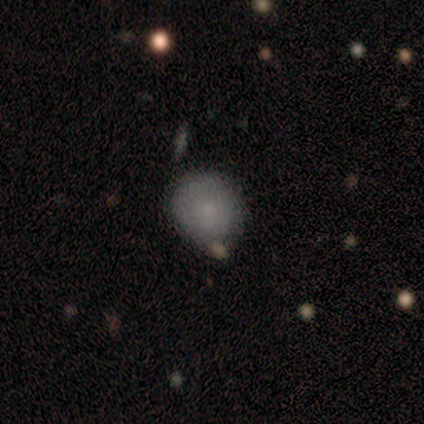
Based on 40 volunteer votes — A smooth galaxy with no disk features (72%) that is round (76%). Merging: none (72%).